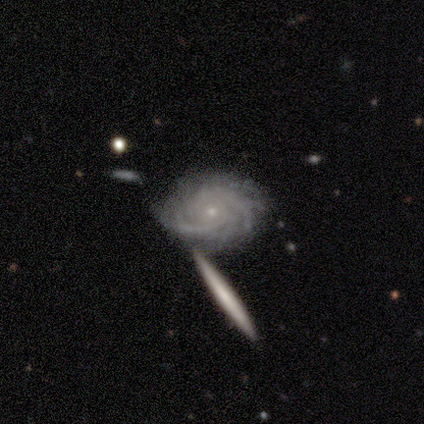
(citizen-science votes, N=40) Morphology: type=featured or disk (92%); edge-on=no (100%); bar=no (97%); spiral arms=yes (100%); winding=tight (89%); arm count=can't tell (32%); bulge=small (92%); merging=none (71%).